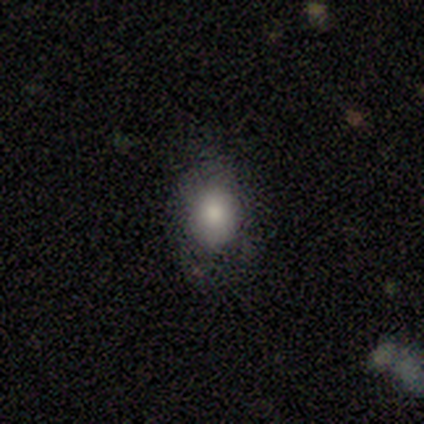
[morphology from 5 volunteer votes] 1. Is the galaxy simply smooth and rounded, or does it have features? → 80% smooth, 20% featured or disk, 0% star or artifact.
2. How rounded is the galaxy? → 100% in between, 0% round, 0% cigar-shaped.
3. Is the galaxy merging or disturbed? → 60% none, 40% minor disturbance, 0% major disturbance, 0% merger.